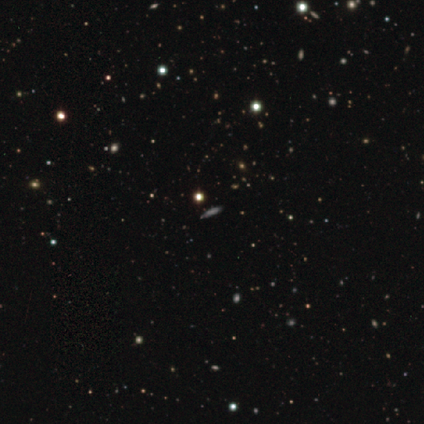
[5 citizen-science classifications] A star or artifact, not a galaxy (60%).